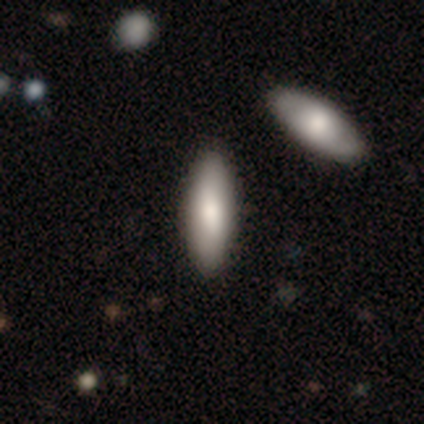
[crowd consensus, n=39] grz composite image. It shows a smooth galaxy with no disk features (79%) that is in between round and cigar-shaped (68%). Merging: none (65%).